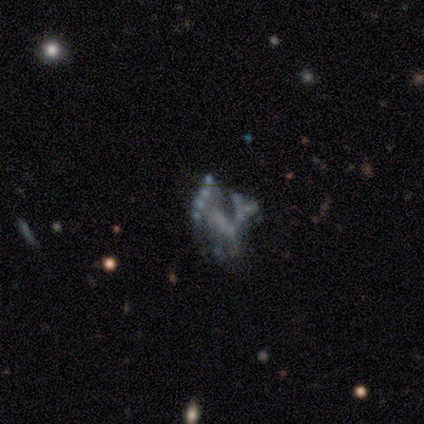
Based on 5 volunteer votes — A star or artifact, not a galaxy (60%).

Vote fractions:
- Smooth or featured? star or artifact: 60% / featured or disk: 40% / smooth: 0%